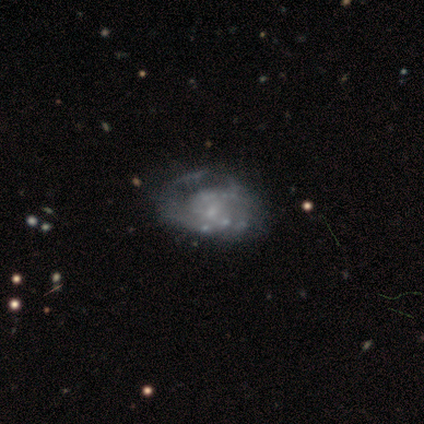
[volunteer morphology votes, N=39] A featured or disk galaxy (85%) with no bar (82%), no spiral arms (52%) and no central bulge (48%).

Vote fractions:
- Smooth or featured? featured or disk: 85% / smooth: 15% / star or artifact: 0%
- Edge-on disk? no: 100% / yes: 0%
- Bar? no: 82% / weak: 18% / strong: 0%
- Spiral arms? no: 52% / yes: 48%
- Bulge size? none: 48% / small: 42% / moderate: 9% / dominant: 0% / large: 0%
- Merging? major disturbance: 41% / none: 23% / minor disturbance: 8% / merger: 8%